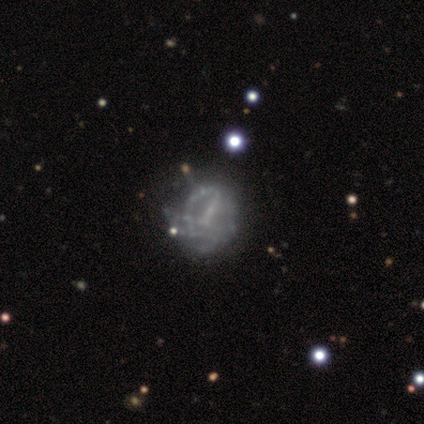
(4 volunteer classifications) Smooth or featured? 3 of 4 (75%) said featured or disk. Edge-on disk? 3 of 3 (100%) said no. Bar? 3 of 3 (100%) said weak. Spiral arms? 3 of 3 (100%) said no. Bulge size? 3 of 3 (100%) said none. Merging? 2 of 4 (50%) said major disturbance.